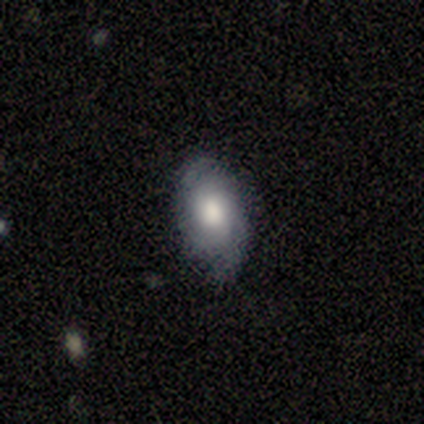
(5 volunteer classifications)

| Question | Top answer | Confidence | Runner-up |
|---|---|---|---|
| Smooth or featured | smooth | 60% | featured or disk (40%) |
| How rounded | in between | 100% | — |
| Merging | minor disturbance | 60% | none (40%) |